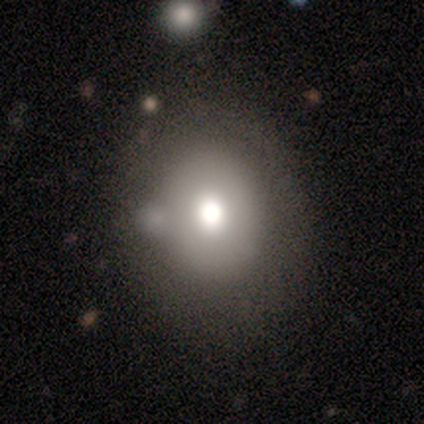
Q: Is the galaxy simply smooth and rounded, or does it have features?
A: smooth — 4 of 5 (80%).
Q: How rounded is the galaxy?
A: round — 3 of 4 (75%).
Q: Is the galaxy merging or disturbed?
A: minor disturbance — 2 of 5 (40%).